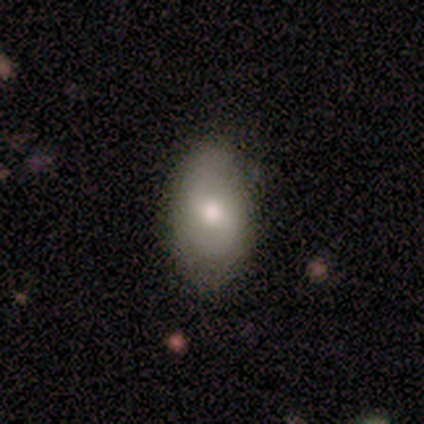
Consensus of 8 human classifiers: smooth-or-featured: featured or disk: 50% | smooth: 38% | star or artifact: 12%
  disk-edge-on: no: 75% | yes: 25%
    bar: weak: 100% | strong: 0% | no: 0%
    has-spiral-arms: yes: 100% | no: 0%
      spiral-winding: tight: 67% | medium: 33% | loose: 0%
      spiral-arm-count: 2: 100% | 1: 0% | 3: 0% | 4: 0% | more than 4: 0% | can't tell: 0%
    bulge-size: moderate: 100% | dominant: 0% | large: 0% | small: 0% | none: 0%
  merging: none: 86% | minor disturbance: 14% | major disturbance: 0% | merger: 0%